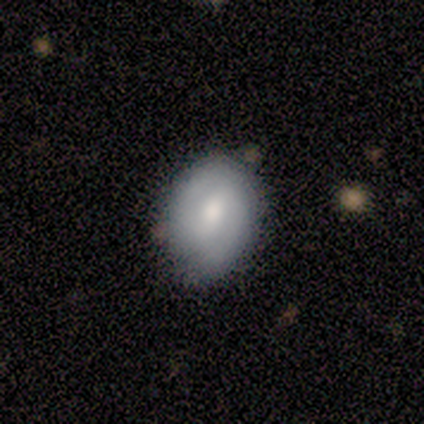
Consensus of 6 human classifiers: This appears to be a smooth galaxy with no disk features (50%, tied with featured or disk) that is round (67%). Merging: none (83%).